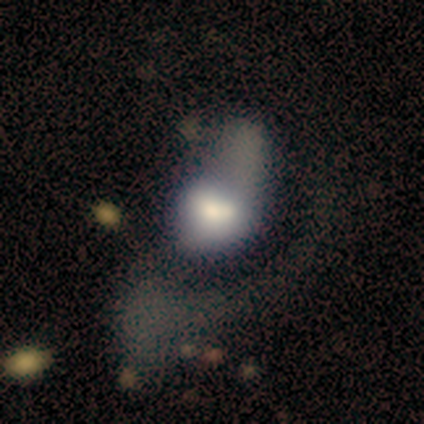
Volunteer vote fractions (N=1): Smooth or featured?
  - featured or disk: 100% *
  - smooth: 0%
  - star or artifact: 0%
Edge-on disk?
  - no: 100% *
  - yes: 0%
Bar?
  - no: 100% *
  - strong: 0%
  - weak: 0%
Spiral arms?
  - no: 100% *
  - yes: 0%
Bulge size?
  - moderate: 100% *
  - dominant: 0%
  - large: 0%
  - small: 0%
  - none: 0%
Merging?
  - minor disturbance: 100% *
  - none: 0%
  - major disturbance: 0%
  - merger: 0%